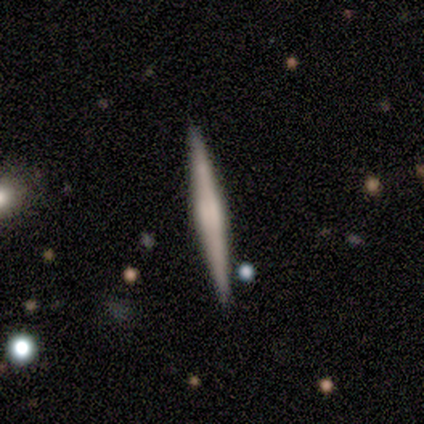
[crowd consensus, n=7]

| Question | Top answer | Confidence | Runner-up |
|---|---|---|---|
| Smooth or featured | featured or disk | 43% | smooth (29%) |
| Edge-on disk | yes | 100% | — |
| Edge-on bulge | rounded | 67% | none (33%) |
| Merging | none | 100% | — |